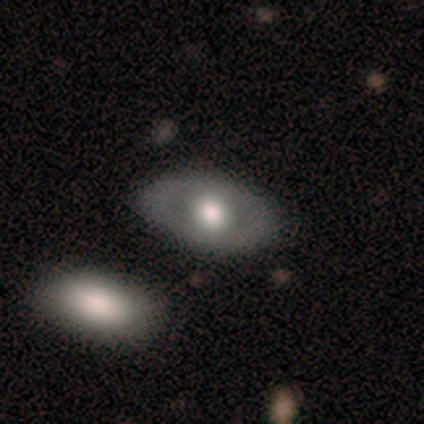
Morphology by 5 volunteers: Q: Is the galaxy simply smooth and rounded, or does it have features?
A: smooth — 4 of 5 (80%).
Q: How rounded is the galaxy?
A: in between — 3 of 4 (75%).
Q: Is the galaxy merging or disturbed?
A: none — 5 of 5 (100%).